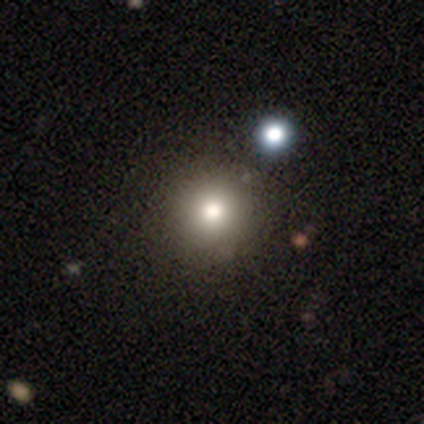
smooth-or-featured: smooth: 80% | star or artifact: 20% | featured or disk: 0%
  how-rounded: round: 100% | in between: 0% | cigar-shaped: 0%
  merging: none: 100% | minor disturbance: 0% | major disturbance: 0% | merger: 0%